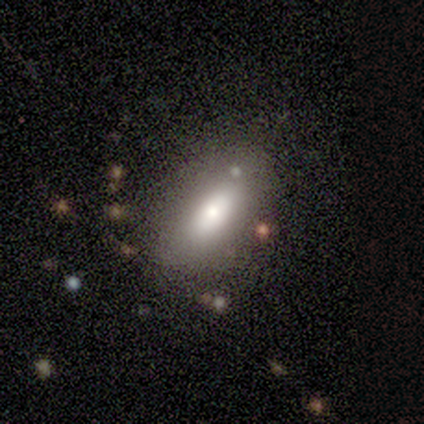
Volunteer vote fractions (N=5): A smooth galaxy with no disk features (60%) that is in between round and cigar-shaped (100%). Merging: none (80%).